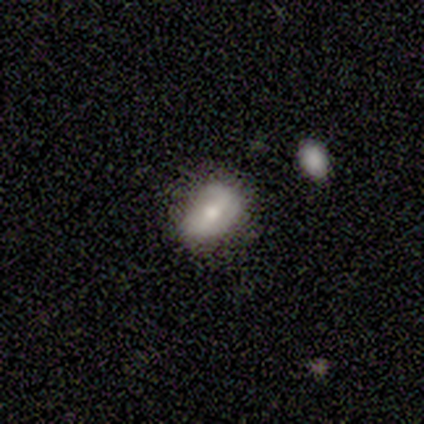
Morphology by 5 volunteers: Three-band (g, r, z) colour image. It shows a smooth galaxy with no disk features (60%) that is in between round and cigar-shaped (100%). Merging: none (60%).